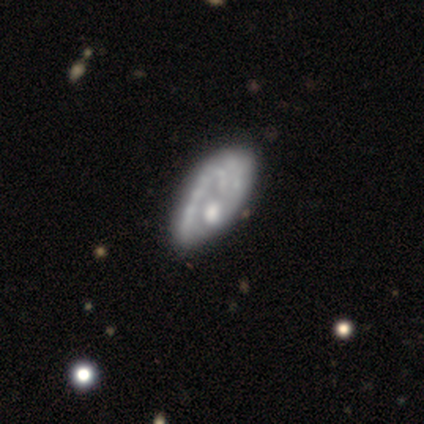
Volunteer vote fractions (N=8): smooth_or_featured: smooth (p=0.50) [tied with: featured or disk p=0.50]
how_rounded: in between (p=1.00)
merging: none (p=0.62) [alt: minor disturbance p=0.25]